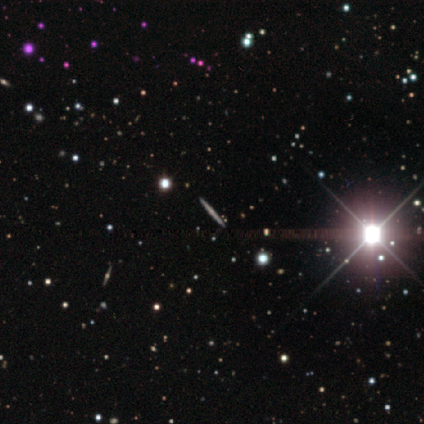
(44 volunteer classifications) Smooth or featured? featured or disk (55%)
Edge-on disk? yes (96%)
Edge-on bulge? none (57%)
Merging? none (100%)